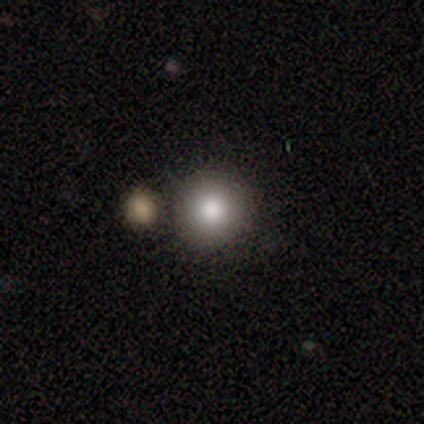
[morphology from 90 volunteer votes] type=smooth (83%); roundness=round (91%); merging=none (81%).